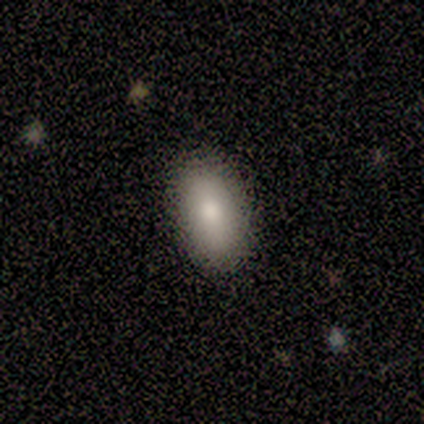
smooth_or_featured: smooth (p=1.00)
how_rounded: in between (p=0.80) [alt: round p=0.20]
merging: none (p=1.00)